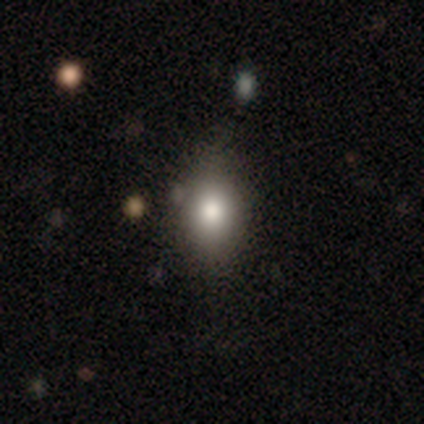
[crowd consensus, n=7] Smooth or featured? 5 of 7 (71%) said smooth. How rounded? 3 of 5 (60%) said in between. Merging? 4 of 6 (67%) said none.